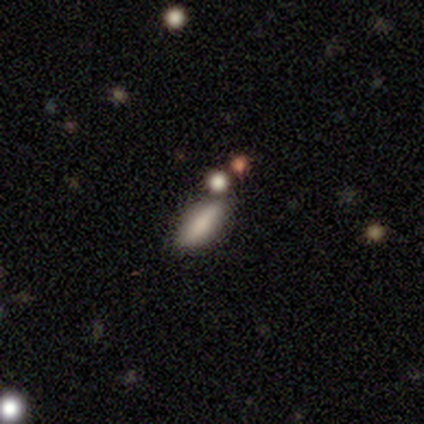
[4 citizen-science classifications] Smooth or featured: smooth — 75% (featured or disk — 25%)
How rounded: in between — 100%
Merging: merger — 50% (none — 25%)